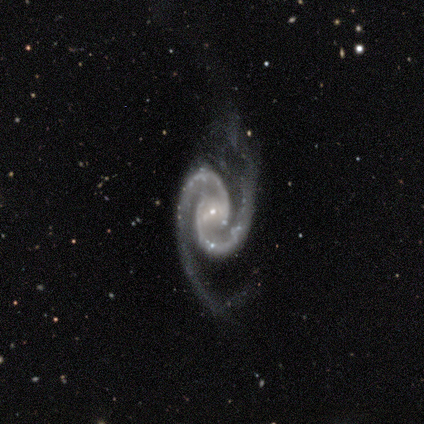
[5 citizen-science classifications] A featured or disk galaxy (100%) with no bar (80%), 2 (100%) tight (60%) spiral arms (100%) and a small central bulge (100%).

Vote fractions:
- Smooth or featured? featured or disk: 100% / smooth: 0% / star or artifact: 0%
- Edge-on disk? no: 100% / yes: 0%
- Bar? no: 80% / strong: 20% / weak: 0%
- Spiral arms? yes: 100% / no: 0%
- Spiral winding? tight: 60% / medium: 40% / loose: 0%
- Spiral arm count? 2: 100% / 1: 0% / 3: 0% / 4: 0% / more than 4: 0% / can't tell: 0%
- Bulge size? small: 100% / dominant: 0% / large: 0% / moderate: 0% / none: 0%
- Merging? none: 80% / minor disturbance: 20% / major disturbance: 0% / merger: 0%